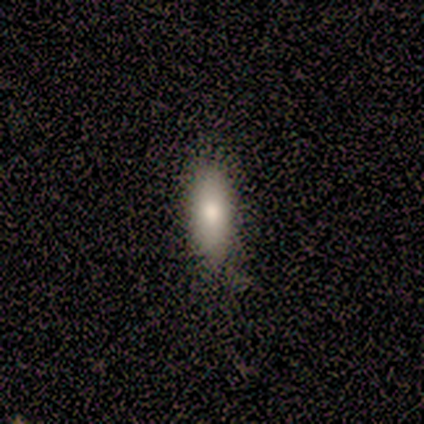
Overall: smooth (75%). How rounded: in between (100%). Merging: none (100%).